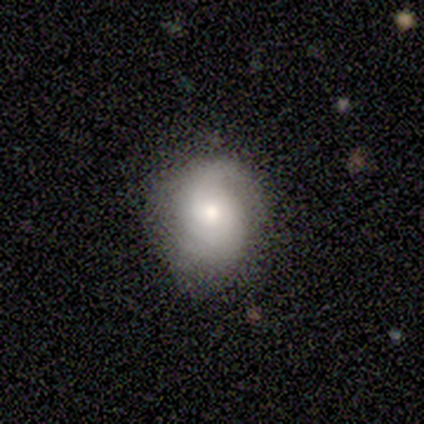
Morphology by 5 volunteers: Overall: smooth (80%). How rounded: round (75%). Merging: none (80%).